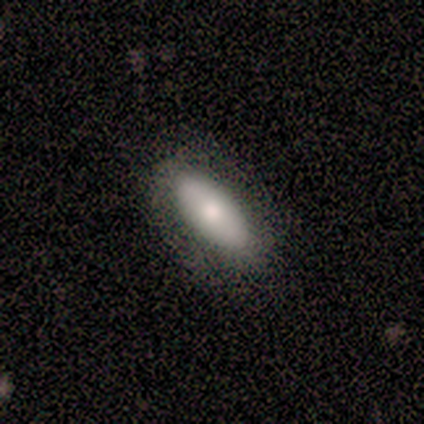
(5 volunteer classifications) Q: Smooth or featured?
A: smooth (60%); runner-up: featured or disk (40%)
Q: How rounded?
A: in between (100%)
Q: Merging?
A: none (100%)